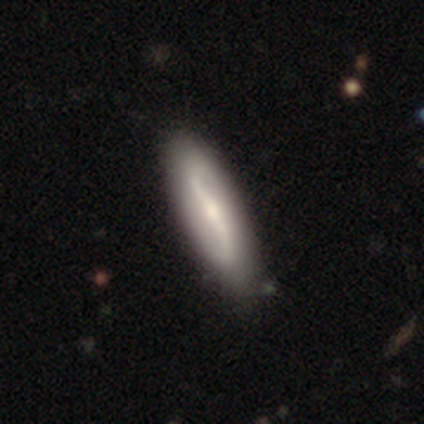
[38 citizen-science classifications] smooth_or_featured: featured or disk (p=0.79) [alt: smooth p=0.18]
disk_edge_on: no (p=0.83) [alt: yes p=0.17]
bar: strong (p=0.64) [alt: weak p=0.20]
has_spiral_arms: yes (p=0.92) [alt: no p=0.08]
spiral_winding: loose (p=0.65) [alt: medium p=0.35]
spiral_arm_count: 2 (p=0.96) [alt: can't tell p=0.04]
bulge_size: small (p=0.56) [alt: moderate p=0.28]
merging: none (p=0.70) [alt: minor disturbance p=0.08]